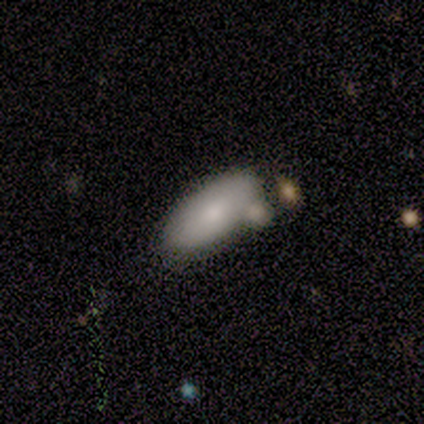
This is clearly a smooth galaxy (80%). How rounded: likely in between (75%). Merging: clearly none (100%).